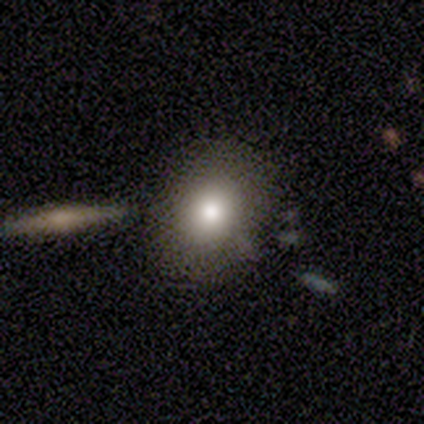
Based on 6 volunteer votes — This is clearly a smooth galaxy (100%). How rounded: likely round (67%). Merging: possibly none (50%).